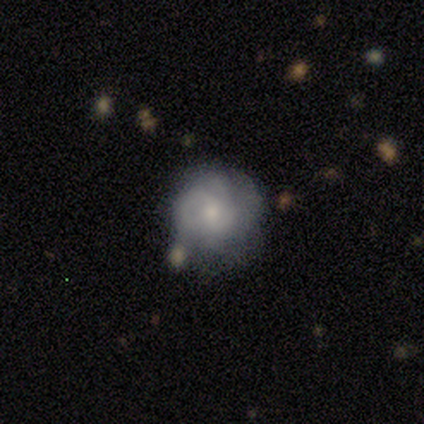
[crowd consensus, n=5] smooth_or_featured: featured or disk (p=0.80) [alt: star or artifact p=0.20]
disk_edge_on: no (p=1.00)
bar: weak (p=0.50) [tied with: no p=0.50]
has_spiral_arms: yes (p=0.50) [tied with: no p=0.50]
spiral_winding: tight (p=0.50) [tied with: loose p=0.50]
spiral_arm_count: 2 (p=0.50) [tied with: can't tell p=0.50]
bulge_size: moderate (p=0.75) [alt: small p=0.25]
merging: none (p=0.75) [alt: major disturbance p=0.25]